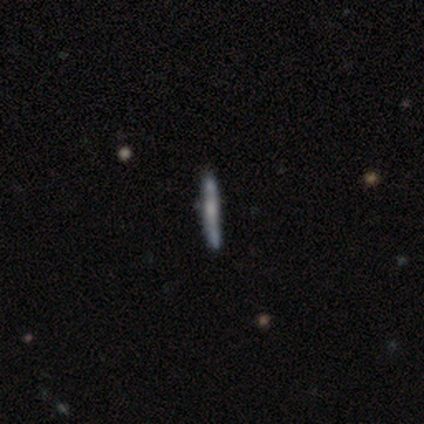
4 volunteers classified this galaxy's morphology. smooth 50% (tied), featured or disk 50% (tied), star or artifact 0%. Down the decision tree: how rounded — cigar-shaped (100%); merging — none (100%).